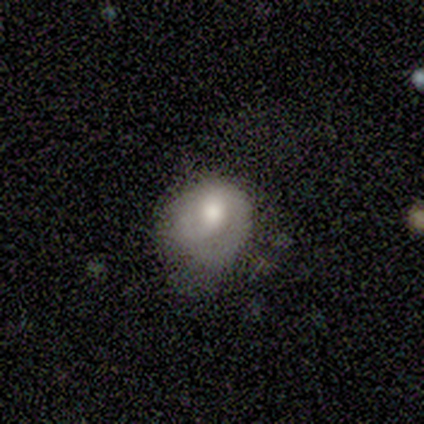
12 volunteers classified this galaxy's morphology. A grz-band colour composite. It shows a smooth galaxy with no disk features (58%) that is round (71%). Merging: none (67%).